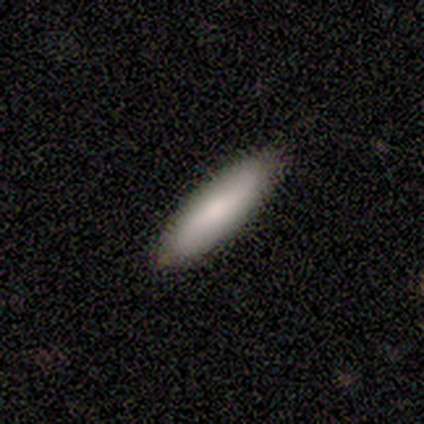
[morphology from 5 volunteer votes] Overall: smooth (80%). How rounded: in between (50%, tied with cigar-shaped). Merging: none (100%).